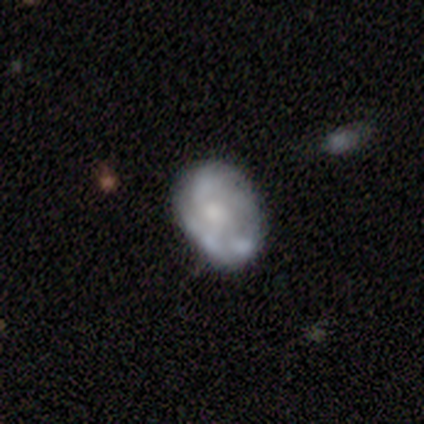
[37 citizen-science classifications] smooth-or-featured: featured or disk: 65% | smooth: 32% | star or artifact: 3%
  disk-edge-on: no: 100% | yes: 0%
    bar: no: 92% | weak: 8% | strong: 0%
    has-spiral-arms: no: 71% | yes: 29%
    bulge-size: moderate: 46% | small: 38% | none: 17% | dominant: 0% | large: 0%
  merging: none: 64% | minor disturbance: 28% | major disturbance: 8% | merger: 0%